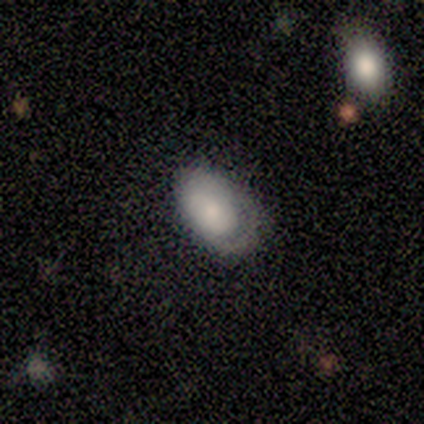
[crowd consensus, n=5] Smooth or featured: smooth — 80% (featured or disk — 20%)
How rounded: in between — 75% (round — 25%)
Merging: major disturbance — 60% (none — 20%)